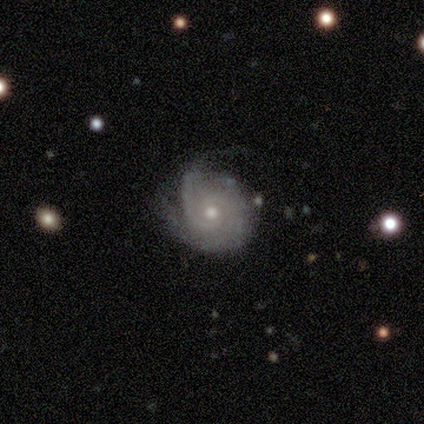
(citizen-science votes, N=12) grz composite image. It shows a featured or disk galaxy (58%) with no bar (100%), 2 (57%) tight (57%) spiral arms (100%) and a moderate central bulge (86%). Merging: minor disturbance (55%).